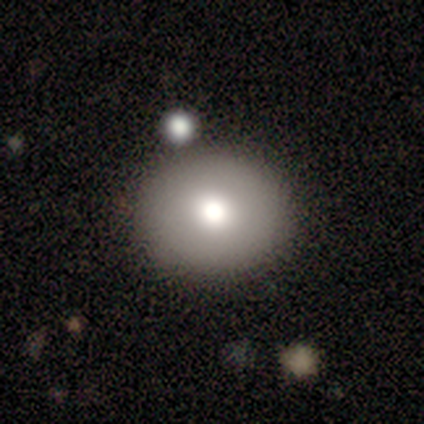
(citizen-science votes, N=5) Smooth or featured: smooth — 60% (featured or disk — 20%)
How rounded: round — 100%
Merging: none — 100%